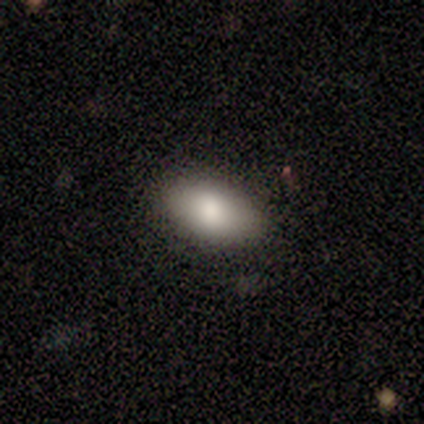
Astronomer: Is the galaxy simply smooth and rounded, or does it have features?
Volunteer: smooth — 100%.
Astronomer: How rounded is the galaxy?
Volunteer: in between — 100%.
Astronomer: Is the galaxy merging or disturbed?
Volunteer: none — 80%.